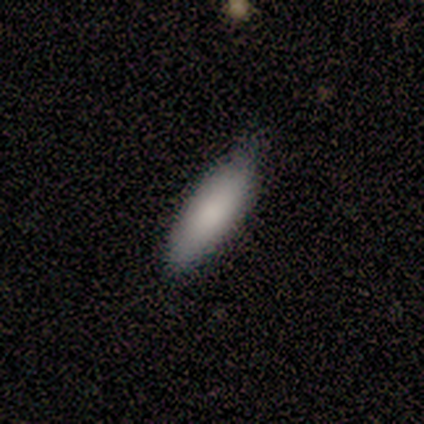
smooth-or-featured: smooth: 100% | featured or disk: 0% | star or artifact: 0%
  how-rounded: in between: 80% | cigar-shaped: 20% | round: 0%
  merging: none: 100% | minor disturbance: 0% | major disturbance: 0% | merger: 0%